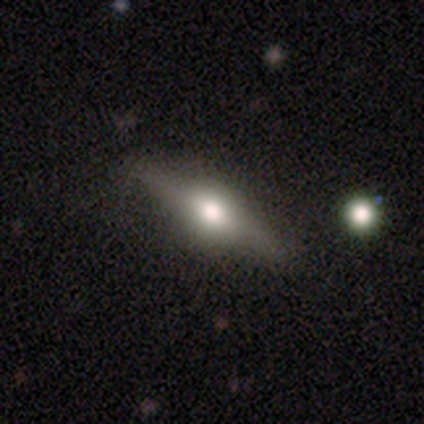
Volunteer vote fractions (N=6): Q: Smooth or featured?
A: featured or disk (100%)
Q: Edge-on disk?
A: yes (83%); runner-up: no (17%)
Q: Edge-on bulge?
A: rounded (100%)
Q: Merging?
A: none (67%); runner-up: minor disturbance (17%)